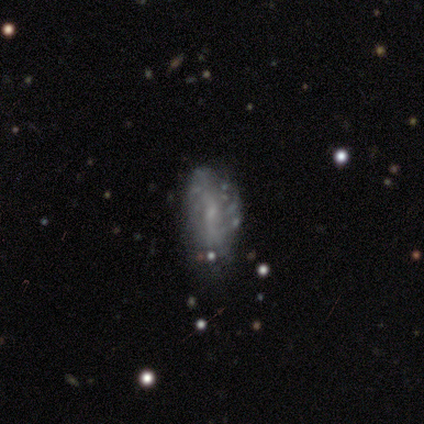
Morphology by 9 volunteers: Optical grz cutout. It shows a featured or disk galaxy (56%) with a weak bar (60%), 2 (33%, tied with 3 and 4) loose (100%) spiral arms (60%) and a small central bulge (80%). Merging: none (71%).